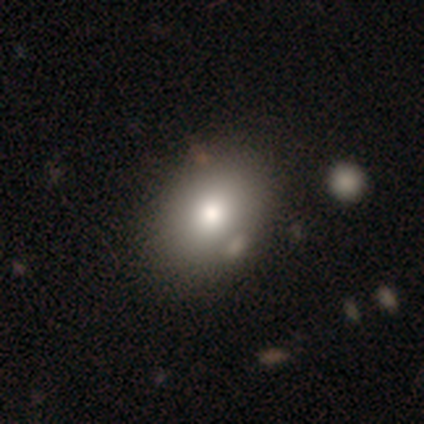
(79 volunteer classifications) A smooth galaxy with no disk features (84%) that is in between round and cigar-shaped (76%). Merging: none (39%).